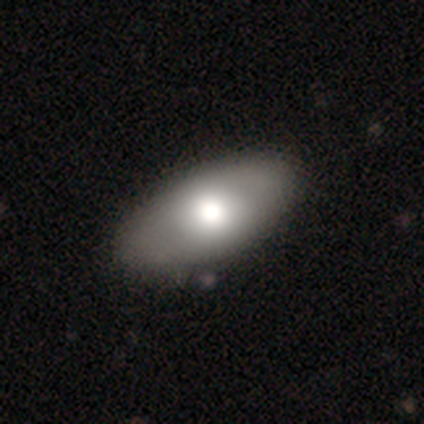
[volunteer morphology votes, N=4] smooth_or_featured: smooth (p=0.50) [tied with: featured or disk p=0.50]
how_rounded: in between (p=1.00)
merging: none (p=0.75) [alt: minor disturbance p=0.25]